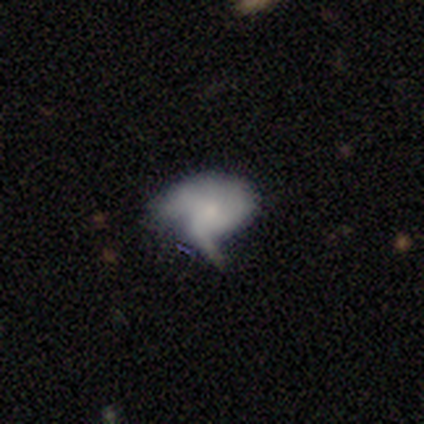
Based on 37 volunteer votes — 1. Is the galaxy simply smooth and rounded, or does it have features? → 54% featured or disk, 41% smooth, 5% star or artifact.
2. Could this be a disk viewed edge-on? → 100% no, 0% yes.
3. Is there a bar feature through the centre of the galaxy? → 70% no, 25% weak, 5% strong.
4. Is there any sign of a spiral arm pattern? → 50% yes (tied), 50% no (tied).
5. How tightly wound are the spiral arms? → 50% loose, 30% medium, 20% tight.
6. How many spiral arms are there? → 50% 1, 20% 3, 20% can't tell, 10% 2, 0% 4, 0% more than 4.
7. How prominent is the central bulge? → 55% small, 30% none, 10% moderate, 5% large, 0% dominant.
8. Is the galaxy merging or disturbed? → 46% major disturbance, 37% minor disturbance, 14% none, 3% merger.